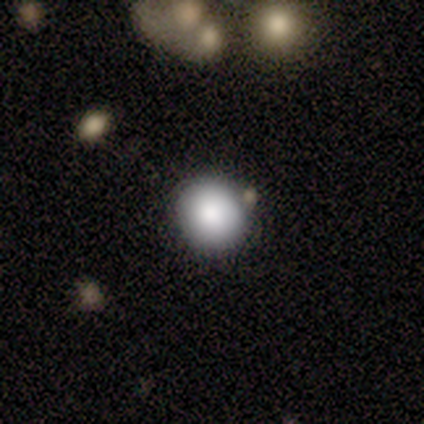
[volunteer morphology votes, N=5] smooth-or-featured: smooth: 80% | star or artifact: 20% | featured or disk: 0%
  how-rounded: round: 75% | in between: 25% | cigar-shaped: 0%
  merging: none: 75% | minor disturbance: 25% | major disturbance: 0% | merger: 0%